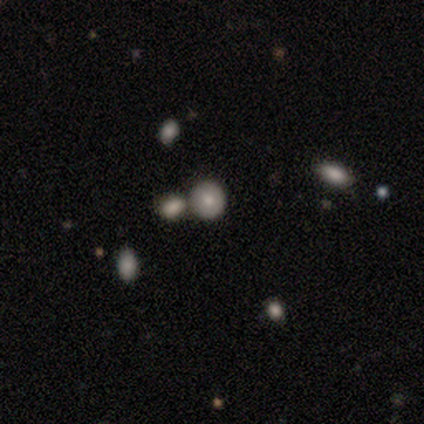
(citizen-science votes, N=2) This is clearly a smooth galaxy (100%). How rounded: clearly round (100%). Merging: clearly merger (100%).